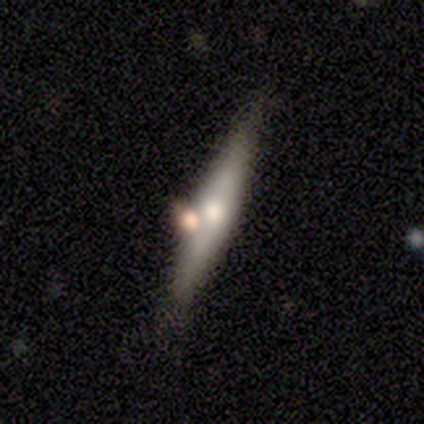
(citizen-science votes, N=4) Smooth or featured? 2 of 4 (50%) said featured or disk. Edge-on disk? 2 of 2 (100%) said yes. Edge-on bulge? 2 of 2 (100%) said rounded. Merging? 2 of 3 (67%) said none.